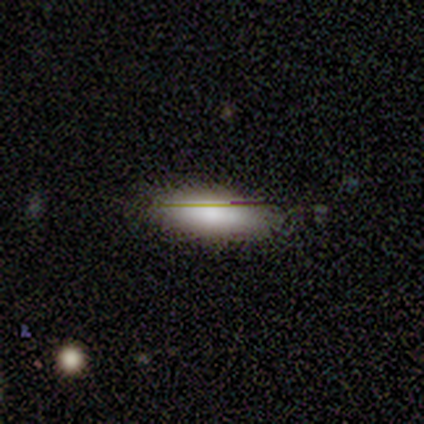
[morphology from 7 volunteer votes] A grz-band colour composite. It shows a smooth galaxy with no disk features (86%) that is in between round and cigar-shaped (50%, tied with cigar-shaped). Merging: none (83%).